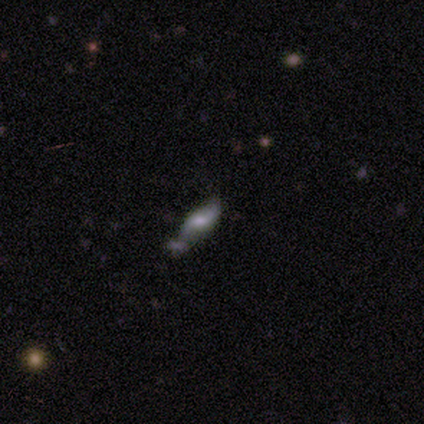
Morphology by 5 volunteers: This appears to be a featured or disk galaxy (60%) with no bar (67%), 2 (100%) loose (100%) spiral arms (67%) and a small central bulge (67%). Merging: none (67%).